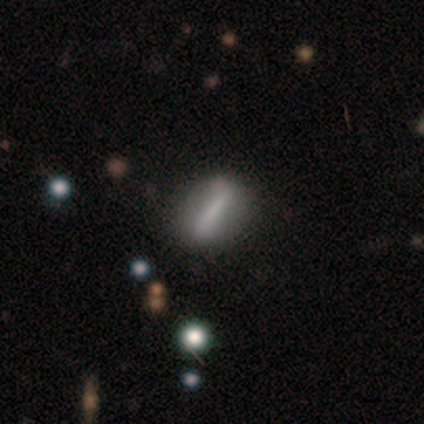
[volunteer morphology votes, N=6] smooth-or-featured: featured or disk: 67% | smooth: 33% | star or artifact: 0%
  disk-edge-on: no: 100% | yes: 0%
    bar: strong: 100% | weak: 0% | no: 0%
    has-spiral-arms: no: 100% | yes: 0%
    bulge-size: none: 50% | large: 25% | moderate: 25% | dominant: 0% | small: 0%
  merging: none: 83% | minor disturbance: 17% | major disturbance: 0% | merger: 0%